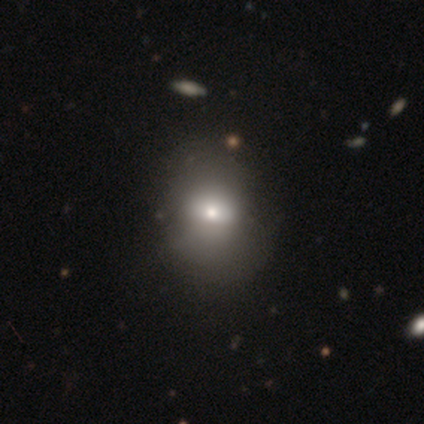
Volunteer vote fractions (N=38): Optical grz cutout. It shows a smooth galaxy with no disk features (71%) that is in between round and cigar-shaped (52%). Merging: none (36%).